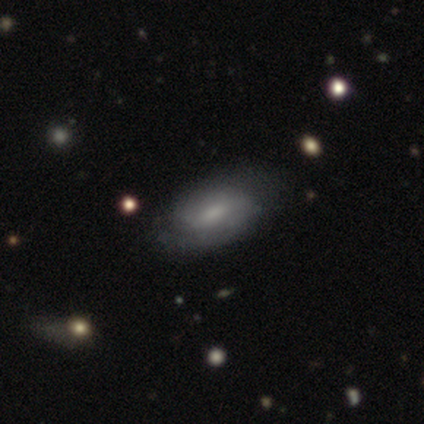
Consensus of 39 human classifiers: Overall: featured or disk (54%; smooth 41%). Edge-on disk: no (100%). Bar: weak (52%; no 38%). Spiral arms: yes (86%). Spiral arm count: 2 (44%; can't tell 39%). Spiral winding: tight (44%; medium 33%). Bulge size: small (48%; moderate 29%). Merging: none (49%; minor disturbance 16%).